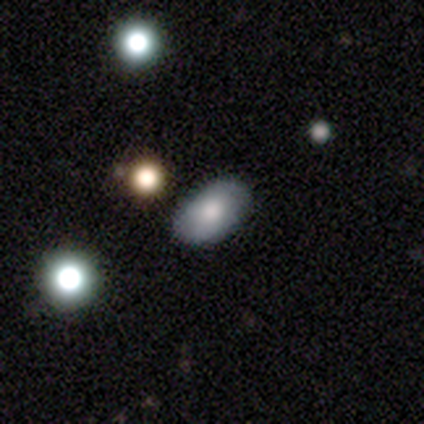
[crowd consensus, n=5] smooth 80%, star or artifact 20%, featured or disk 0%. Down the decision tree: how rounded — in between (100%); merging — none (100%).